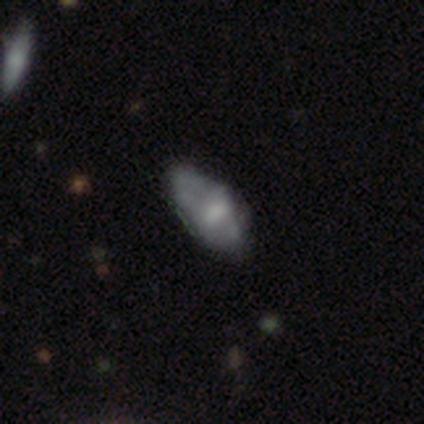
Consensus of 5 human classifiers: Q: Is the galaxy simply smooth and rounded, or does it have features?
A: featured or disk — 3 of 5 (60%).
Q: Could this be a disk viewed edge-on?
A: no — 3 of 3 (100%).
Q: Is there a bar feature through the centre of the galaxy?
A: weak — 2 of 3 (67%).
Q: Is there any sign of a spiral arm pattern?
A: no — 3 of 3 (100%).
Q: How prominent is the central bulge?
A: large — 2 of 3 (67%).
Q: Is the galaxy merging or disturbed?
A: minor disturbance — 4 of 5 (80%).